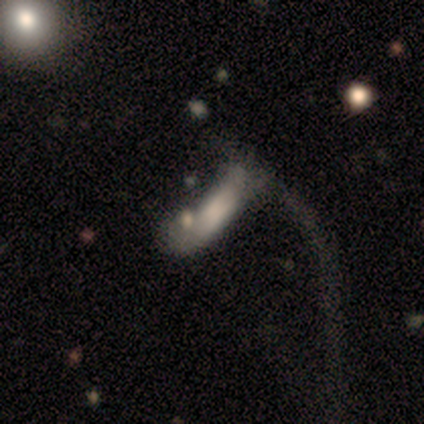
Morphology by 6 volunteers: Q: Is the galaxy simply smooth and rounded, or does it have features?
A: smooth — 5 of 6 (83%).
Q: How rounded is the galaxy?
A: in between — 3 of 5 (60%).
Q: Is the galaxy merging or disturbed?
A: major disturbance — 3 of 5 (60%).